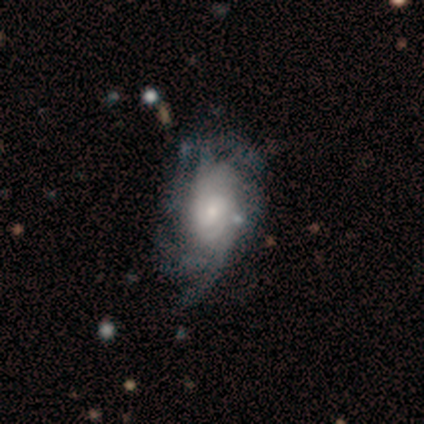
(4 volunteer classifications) A featured or disk galaxy (100%) with no bar (75%), medium (50%) spiral arms (100%) and a small central bulge (50%).

Vote fractions:
- Smooth or featured? featured or disk: 100% / smooth: 0% / star or artifact: 0%
- Edge-on disk? no: 100% / yes: 0%
- Bar? no: 75% / weak: 25% / strong: 0%
- Spiral arms? yes: 100% / no: 0%
- Spiral winding? medium: 50% / tight: 25% / loose: 25%
- Spiral arm count? can't tell: 75% / more than 4: 25% / 1: 0% / 2: 0% / 3: 0% / 4: 0%
- Bulge size? small: 50% / large: 25% / moderate: 25% / dominant: 0% / none: 0%
- Merging? none: 50% / minor disturbance: 25% / major disturbance: 25% / merger: 0%